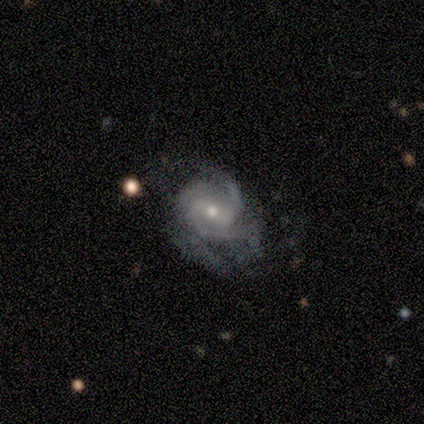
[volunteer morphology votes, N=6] This is clearly a featured or disk galaxy (83%). It is clearly not viewed edge-on (100%). Bar: likely weak (60%). Spiral arm pattern: clearly yes (100%). Spiral arm count: likely 2 (60%). Spiral winding: clearly medium (80%). Central bulge: likely moderate (60%). Merging: possibly major disturbance (50%).